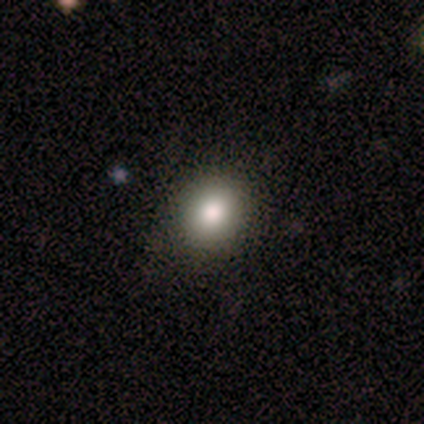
smooth_or_featured: smooth (p=0.80) [alt: featured or disk p=0.10]
how_rounded: round (p=0.62) [alt: in between p=0.38]
merging: none (p=0.92) [alt: minor disturbance p=0.08]